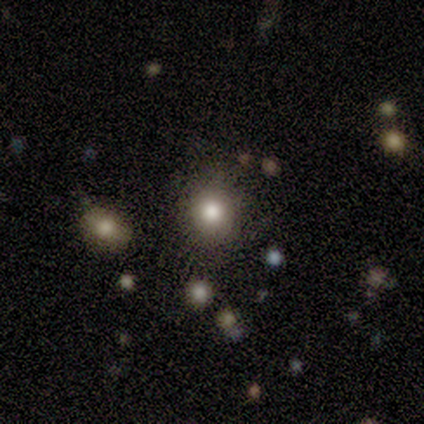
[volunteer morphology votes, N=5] Smooth or featured?
  - smooth: 60% *
  - star or artifact: 40%
  - featured or disk: 0%
How rounded?
  - round: 100% *
  - in between: 0%
  - cigar-shaped: 0%
Merging?
  - none: 33% * (tied)
  - minor disturbance: 33% * (tied)
  - major disturbance: 33% * (tied)
  - merger: 0%